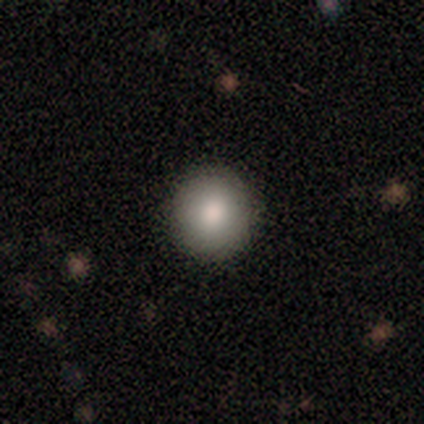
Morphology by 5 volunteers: This appears to be a smooth galaxy with no disk features (100%) that is round (100%). Merging: none (100%).